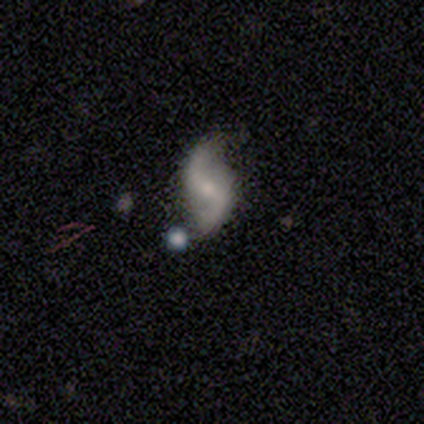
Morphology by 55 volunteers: featured or disk 89%, smooth 5%, star or artifact 5%. Down the decision tree: edge-on disk — no (98%); bar — weak (52%); spiral arms — yes (100%); spiral arm count — 2 (98%); spiral winding — loose (83%); bulge size — moderate (46%); merging — none (65%).